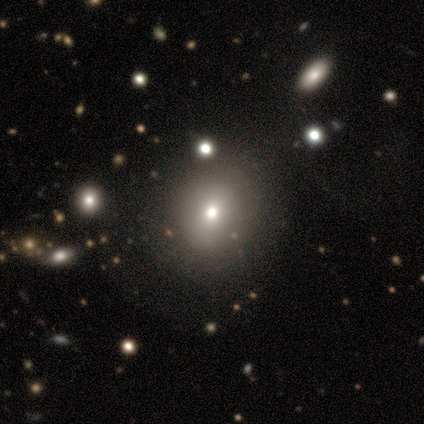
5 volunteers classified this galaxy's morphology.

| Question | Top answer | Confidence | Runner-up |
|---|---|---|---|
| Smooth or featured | smooth | 80% | featured or disk (20%) |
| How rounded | round | 75% | in between (25%) |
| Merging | none | 60% | major disturbance (20%) |